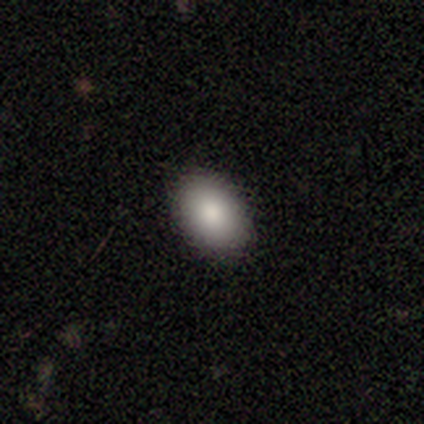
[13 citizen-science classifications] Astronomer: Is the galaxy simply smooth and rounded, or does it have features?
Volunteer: smooth — 85%.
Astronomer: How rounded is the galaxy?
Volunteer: in between — 82%.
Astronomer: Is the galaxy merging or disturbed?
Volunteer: none — 100%.